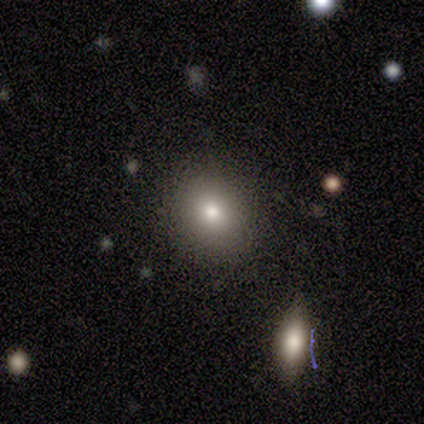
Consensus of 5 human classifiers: smooth-or-featured: smooth: 60% | featured or disk: 40% | star or artifact: 0%
  how-rounded: in between: 67% | round: 33% | cigar-shaped: 0%
  merging: none: 100% | minor disturbance: 0% | major disturbance: 0% | merger: 0%